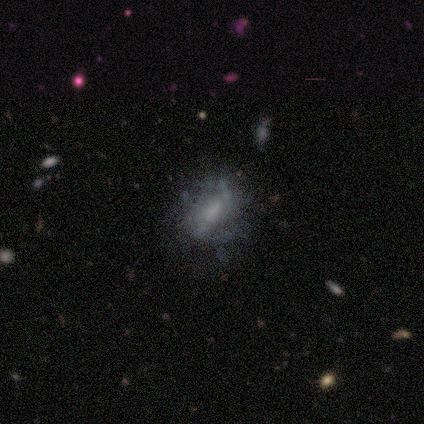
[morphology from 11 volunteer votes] Smooth or featured? smooth (45%, tied with featured or disk)
How rounded? in between (80%)
Merging? none (70%)